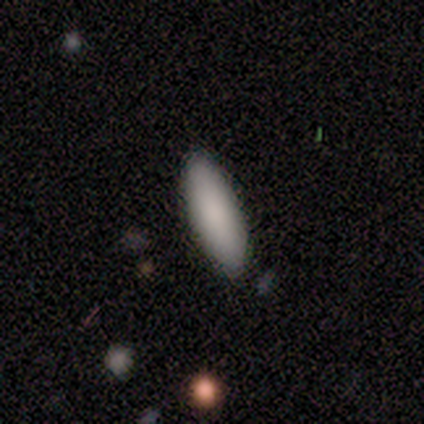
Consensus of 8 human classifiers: Smooth or featured: smooth — 88% (star or artifact — 12%)
How rounded: in between — 86% (cigar-shaped — 14%)
Merging: none — 100%